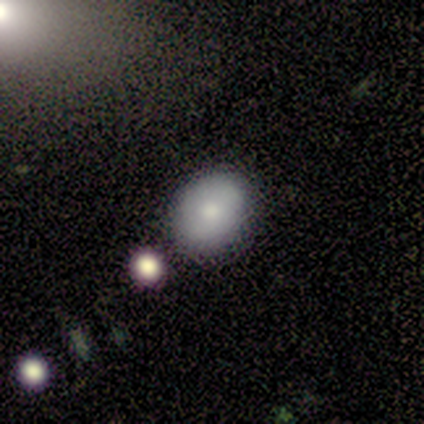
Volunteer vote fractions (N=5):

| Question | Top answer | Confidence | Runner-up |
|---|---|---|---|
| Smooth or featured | smooth | 60% | star or artifact (40%) |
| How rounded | in between | 67% | round (33%) |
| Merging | none | 100% | — |